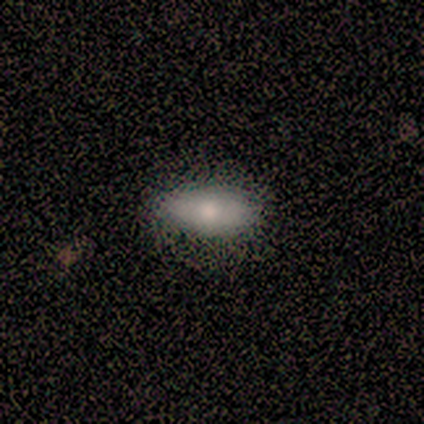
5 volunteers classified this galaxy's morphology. smooth 60%, featured or disk 20%, star or artifact 20%. Down the decision tree: how rounded — in between (67%); merging — none (75%).